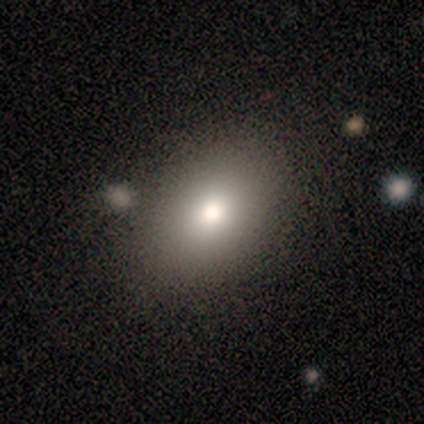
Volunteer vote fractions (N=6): smooth-or-featured: smooth: 83% | star or artifact: 17% | featured or disk: 0%
  how-rounded: in between: 100% | round: 0% | cigar-shaped: 0%
  merging: none: 100% | minor disturbance: 0% | major disturbance: 0% | merger: 0%